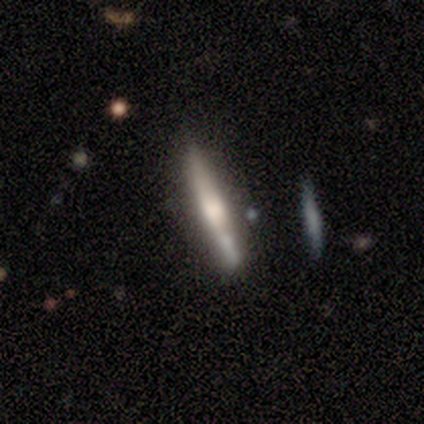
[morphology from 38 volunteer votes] Smooth or featured? 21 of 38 (55%) said featured or disk. Edge-on disk? 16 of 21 (76%) said yes. Edge-on bulge? 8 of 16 (50%) said rounded. Merging? 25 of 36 (69%) said none.